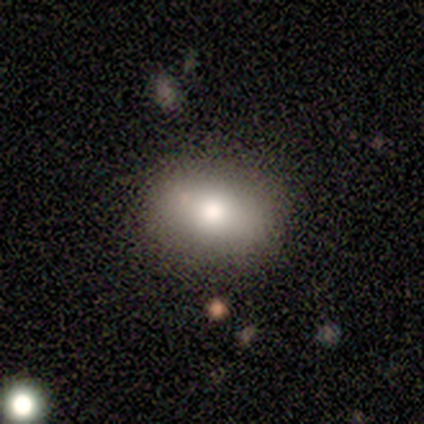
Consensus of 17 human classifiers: Morphology: type=smooth (82%); roundness=in between (71%); merging=none (88%).